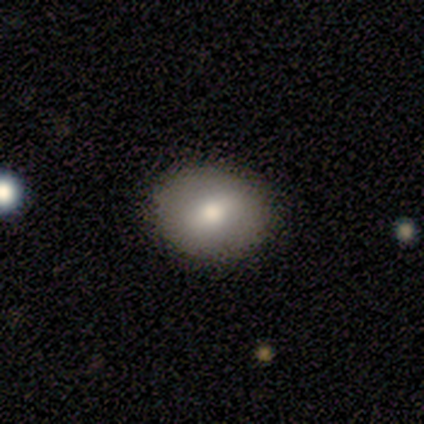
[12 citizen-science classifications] Q: Smooth or featured?
A: smooth (75%); runner-up: featured or disk (17%)
Q: How rounded?
A: in between (56%); runner-up: round (44%)
Q: Merging?
A: none (82%); runner-up: minor disturbance (9%)